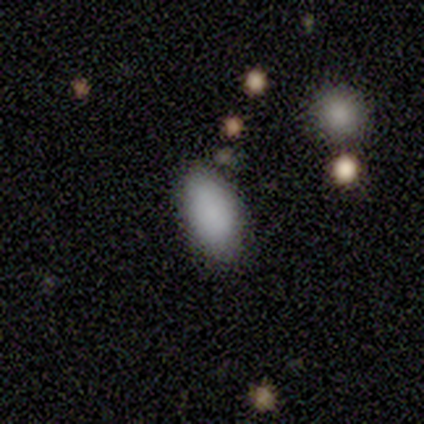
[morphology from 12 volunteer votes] smooth-or-featured: smooth: 92% | star or artifact: 8% | featured or disk: 0%
  how-rounded: in between: 100% | round: 0% | cigar-shaped: 0%
  merging: none: 82% | minor disturbance: 18% | major disturbance: 0% | merger: 0%